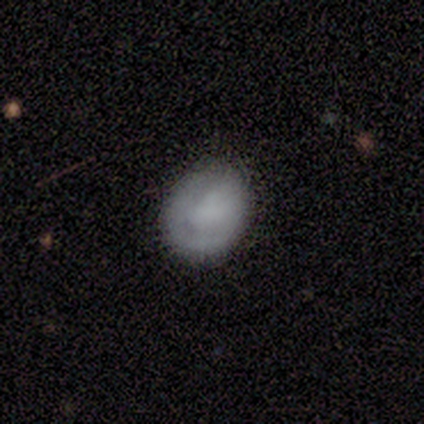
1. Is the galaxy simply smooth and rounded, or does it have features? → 75% smooth, 17% featured or disk, 8% star or artifact.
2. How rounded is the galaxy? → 44% round (tied), 44% in between (tied), 11% cigar-shaped.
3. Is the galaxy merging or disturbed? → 73% none, 27% minor disturbance, 0% major disturbance, 0% merger.